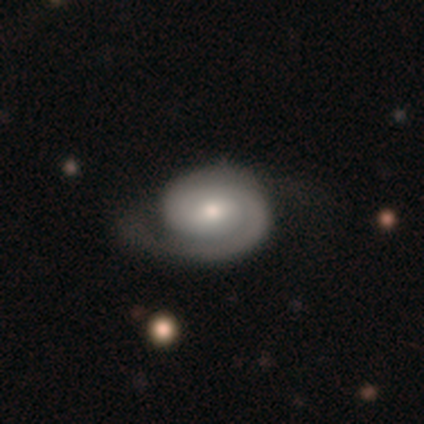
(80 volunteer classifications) smooth_or_featured: featured or disk (p=0.78) [alt: smooth p=0.20]
disk_edge_on: no (p=0.95) [alt: yes p=0.05]
bar: no (p=0.54) [alt: weak p=0.39]
has_spiral_arms: yes (p=0.98) [alt: no p=0.02]
spiral_winding: tight (p=0.69) [alt: medium p=0.26]
spiral_arm_count: 2 (p=0.48) [alt: 1 p=0.40]
bulge_size: moderate (p=0.59) [alt: small p=0.34]
merging: none (p=0.26) [alt: minor disturbance p=0.14]